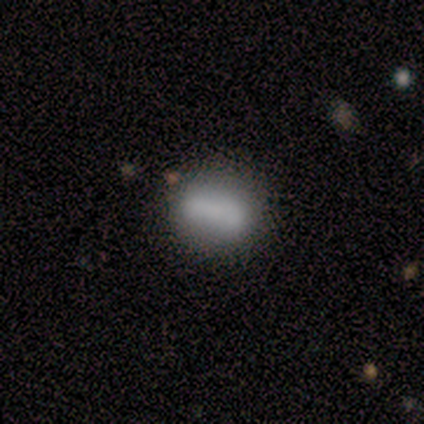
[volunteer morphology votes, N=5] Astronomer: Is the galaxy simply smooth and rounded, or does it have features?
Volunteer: smooth — 100%.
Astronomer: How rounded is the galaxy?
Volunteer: in between — 100%.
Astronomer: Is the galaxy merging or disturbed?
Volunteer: none — 40%, tied with merger at 40%.